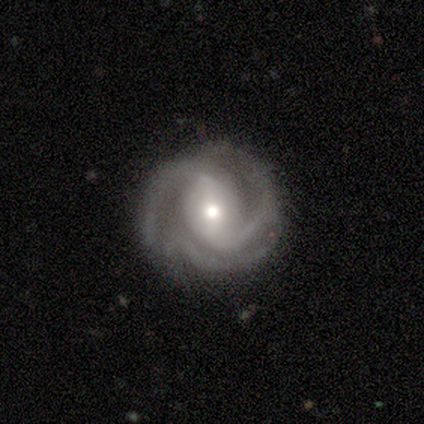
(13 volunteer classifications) This appears to be a featured or disk galaxy (100%) with no bar (38%), 3 (54%) medium (62%) spiral arms (100%) and a moderate central bulge (62%). Merging: none (85%).